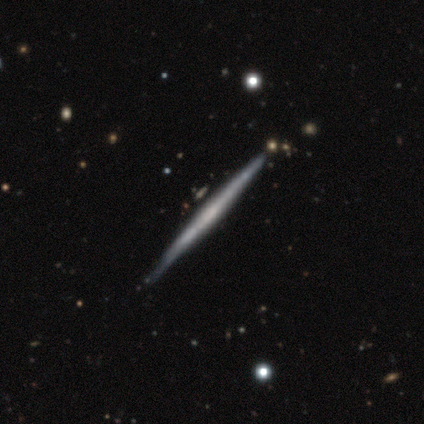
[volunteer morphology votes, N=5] smooth_or_featured: featured or disk (p=1.00)
disk_edge_on: yes (p=1.00)
edge_on_bulge: none (p=0.80) [alt: rounded p=0.20]
merging: none (p=1.00)